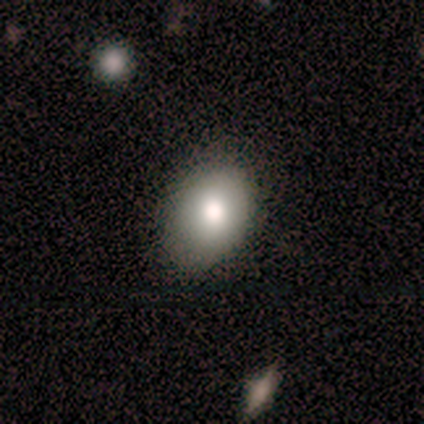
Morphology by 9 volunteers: A smooth galaxy with no disk features (78%) that is in between round and cigar-shaped (71%).

Vote fractions:
- Smooth or featured? smooth: 78% / featured or disk: 11% / star or artifact: 11%
- How rounded? in between: 71% / round: 29% / cigar-shaped: 0%
- Merging? none: 62% / minor disturbance: 38% / major disturbance: 0% / merger: 0%